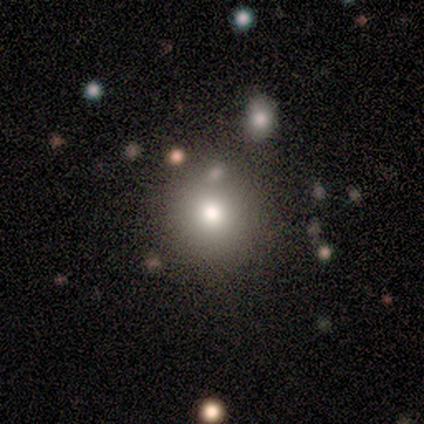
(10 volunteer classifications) smooth 70%, featured or disk 20%, star or artifact 10%. Down the decision tree: how rounded — round (86%); merging — none (67%).